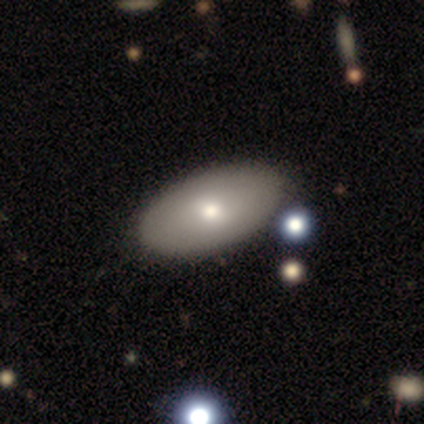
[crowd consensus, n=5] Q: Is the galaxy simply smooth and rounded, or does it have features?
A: smooth — 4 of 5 (80%).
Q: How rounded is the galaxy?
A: in between — 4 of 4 (100%).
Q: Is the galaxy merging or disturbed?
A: none — 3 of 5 (60%).